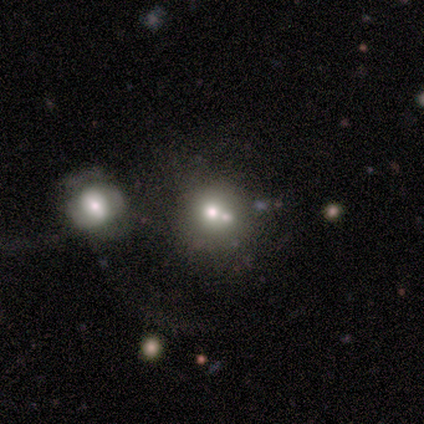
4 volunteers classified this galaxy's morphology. A smooth galaxy with no disk features (50%, tied with star or artifact) that is round (100%).

Vote fractions:
- Smooth or featured? smooth: 50% (tied) / star or artifact: 50% (tied) / featured or disk: 0%
- How rounded? round: 100% / in between: 0% / cigar-shaped: 0%
- Merging? none: 50% (tied) / merger: 50% (tied) / minor disturbance: 0% / major disturbance: 0%